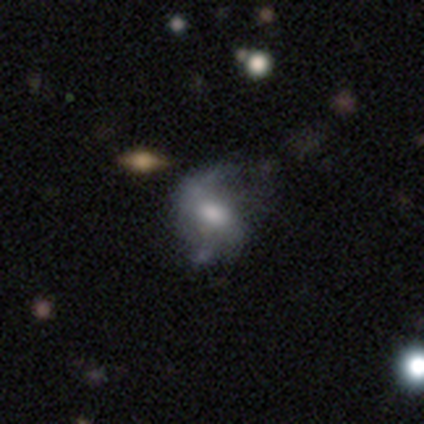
smooth-or-featured: featured or disk: 80% | smooth: 20% | star or artifact: 0%
  disk-edge-on: no: 100% | yes: 0%
    bar: strong: 50% | weak: 25% | no: 25%
    has-spiral-arms: yes: 100% | no: 0%
      spiral-winding: medium: 50% (tied) | loose: 50% (tied) | tight: 0%
      spiral-arm-count: 2: 75% | can't tell: 25% | 1: 0% | 3: 0% | 4: 0% | more than 4: 0%
    bulge-size: large: 50% (tied) | moderate: 50% (tied) | dominant: 0% | small: 0% | none: 0%
  merging: none: 60% | minor disturbance: 40% | major disturbance: 0% | merger: 0%